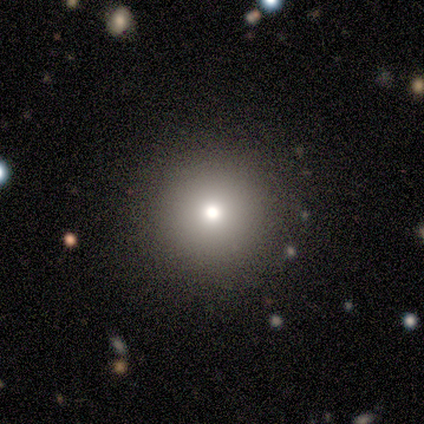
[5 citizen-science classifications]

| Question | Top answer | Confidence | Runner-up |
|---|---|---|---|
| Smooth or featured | smooth | 100% | — |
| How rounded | round | 100% | — |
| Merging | none | 100% | — |